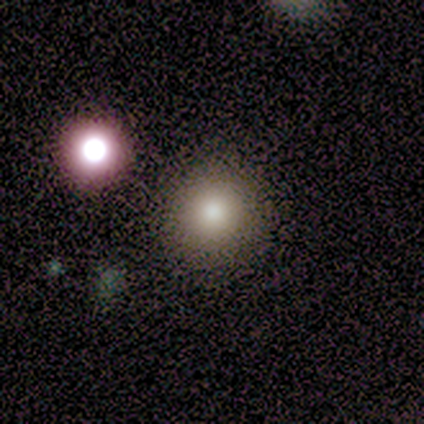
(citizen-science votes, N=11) A smooth galaxy with no disk features (64%) that is round (86%).

Vote fractions:
- Smooth or featured? smooth: 64% / star or artifact: 36% / featured or disk: 0%
- How rounded? round: 86% / in between: 14% / cigar-shaped: 0%
- Merging? none: 86% / minor disturbance: 14% / major disturbance: 0% / merger: 0%